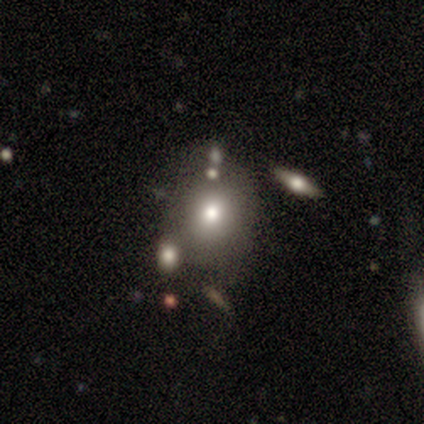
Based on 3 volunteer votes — smooth_or_featured: smooth (p=0.67) [alt: featured or disk p=0.33]
how_rounded: round (p=1.00)
merging: minor disturbance (p=0.67) [alt: none p=0.33]